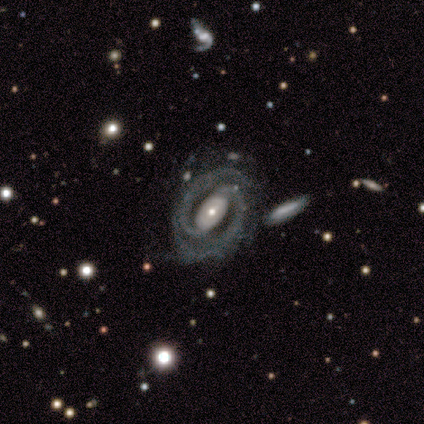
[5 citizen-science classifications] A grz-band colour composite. It shows a featured or disk galaxy (100%) with a strong bar (40%, tied with no), 2 (100%) tight (60%) spiral arms (100%) and a moderate central bulge (40%). Merging: none (100%).